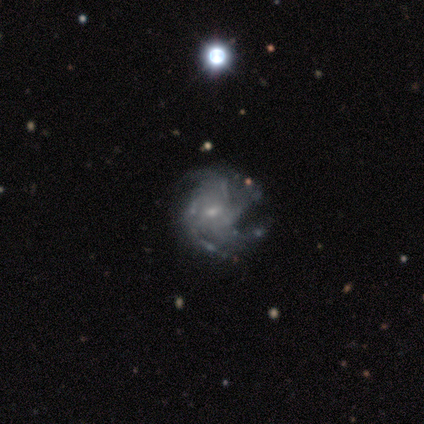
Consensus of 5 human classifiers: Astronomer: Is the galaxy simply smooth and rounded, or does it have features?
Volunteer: featured or disk — 100%.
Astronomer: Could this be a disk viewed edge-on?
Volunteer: no — 100%.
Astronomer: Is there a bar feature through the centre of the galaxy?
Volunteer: weak — 60% (runner-up: no, 40%).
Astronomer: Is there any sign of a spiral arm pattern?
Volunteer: yes — 100%.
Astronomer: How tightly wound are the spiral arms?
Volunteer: tight — 60% (runner-up: medium, 40%).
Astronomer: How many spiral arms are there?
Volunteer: can't tell — 60% (runner-up: more than 4, 40%).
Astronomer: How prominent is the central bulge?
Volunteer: small — 80%.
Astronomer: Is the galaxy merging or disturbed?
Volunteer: none — 60% (runner-up: minor disturbance, 40%).